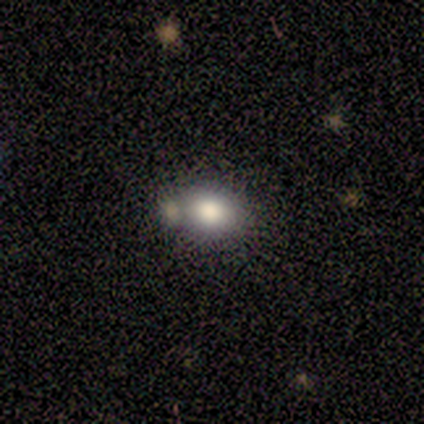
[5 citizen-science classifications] Smooth or featured? smooth (60%)
How rounded? round (67%)
Merging? merger (75%)